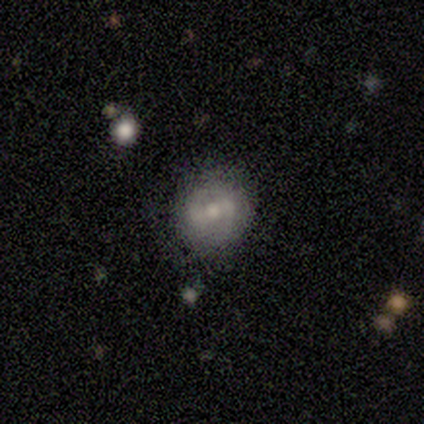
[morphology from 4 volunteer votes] smooth-or-featured: featured or disk: 75% | smooth: 25% | star or artifact: 0%
  disk-edge-on: no: 100% | yes: 0%
    bar: no: 67% | weak: 33% | strong: 0%
    has-spiral-arms: no: 67% | yes: 33%
    bulge-size: moderate: 100% | dominant: 0% | large: 0% | small: 0% | none: 0%
  merging: none: 75% | major disturbance: 25% | minor disturbance: 0% | merger: 0%